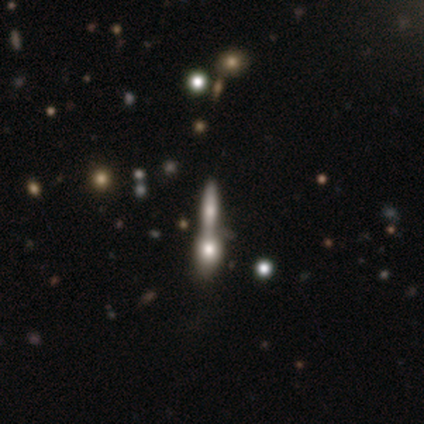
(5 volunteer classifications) Overall: smooth (40%, tied with featured or disk). How rounded: in between (50%, tied with cigar-shaped). Merging: none (50%, tied with merger).